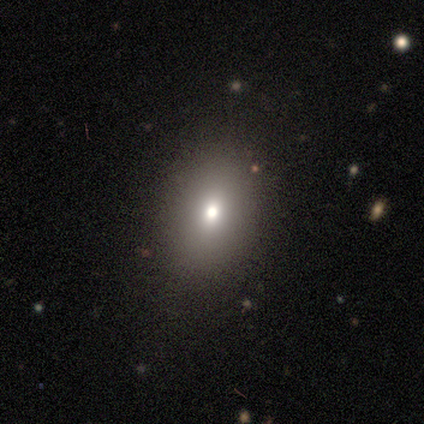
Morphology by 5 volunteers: Q: Smooth or featured?
A: smooth (80%); runner-up: star or artifact (20%)
Q: How rounded?
A: round (50%); tied with: in between (50%)
Q: Merging?
A: none (75%); runner-up: minor disturbance (25%)